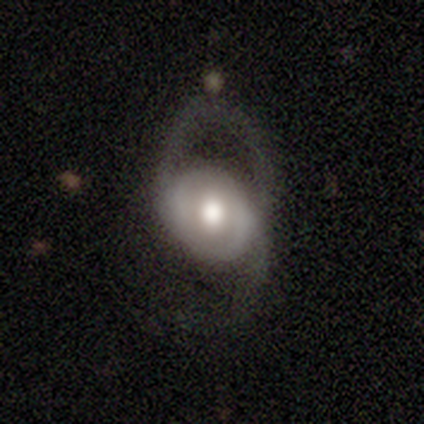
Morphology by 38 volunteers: This is likely a featured or disk galaxy (66%). It is clearly not viewed edge-on (96%). Bar: likely no (62%). Spiral arm pattern: possibly yes (54%). Spiral arm count: clearly 2 (85%). Spiral winding: possibly loose (54%). Central bulge: marginally large (38%, tied with moderate). Merging: possibly major disturbance (52%).